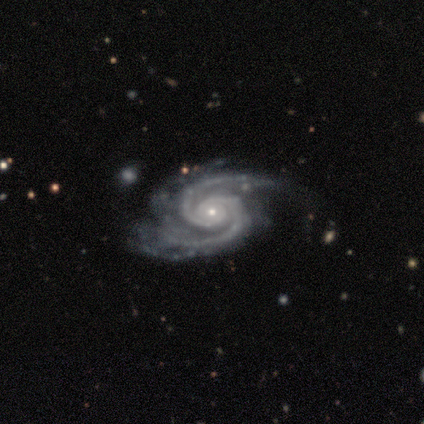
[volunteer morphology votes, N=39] Overall: featured or disk (92%). Edge-on disk: no (97%). Bar: no (77%). Spiral arms: yes (100%). Spiral arm count: 2 (80%). Spiral winding: tight (60%; medium 40%). Bulge size: small (86%). Merging: none (54%; minor disturbance 24%).